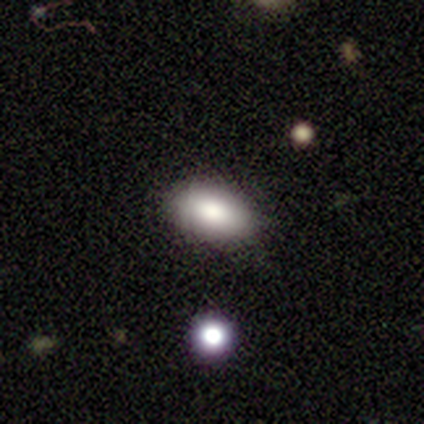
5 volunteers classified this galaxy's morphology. A smooth galaxy with no disk features (100%) that is in between round and cigar-shaped (100%).

Vote fractions:
- Smooth or featured? smooth: 100% / featured or disk: 0% / star or artifact: 0%
- How rounded? in between: 100% / round: 0% / cigar-shaped: 0%
- Merging? none: 80% / minor disturbance: 20% / major disturbance: 0% / merger: 0%